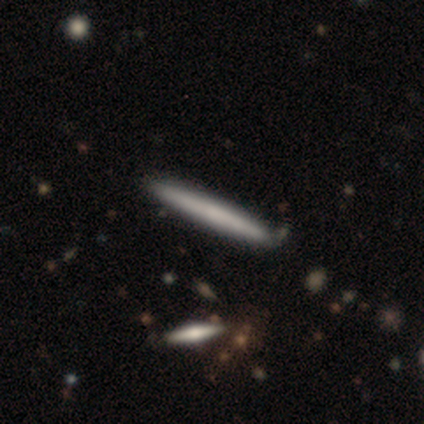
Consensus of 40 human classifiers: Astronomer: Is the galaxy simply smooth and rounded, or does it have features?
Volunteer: smooth — 60% (runner-up: featured or disk, 40%).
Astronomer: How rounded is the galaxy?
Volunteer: cigar-shaped — 100%.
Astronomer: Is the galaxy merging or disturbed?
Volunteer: none — 68%.